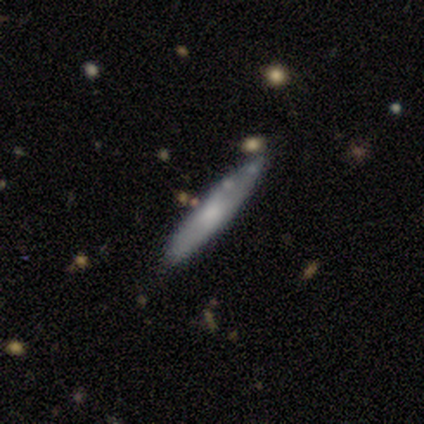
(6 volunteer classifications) Smooth or featured? smooth (83%)
How rounded? cigar-shaped (80%)
Merging? none (67%)